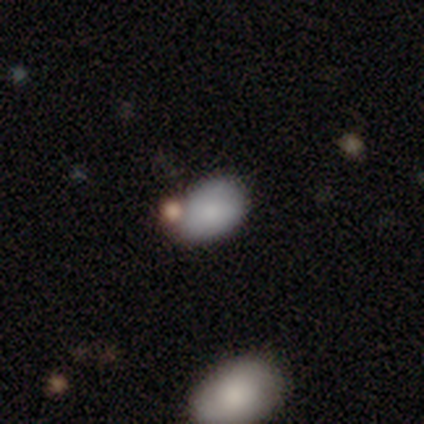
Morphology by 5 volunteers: Overall: smooth (100%). How rounded: in between (100%). Merging: merger (60%; none 20%).